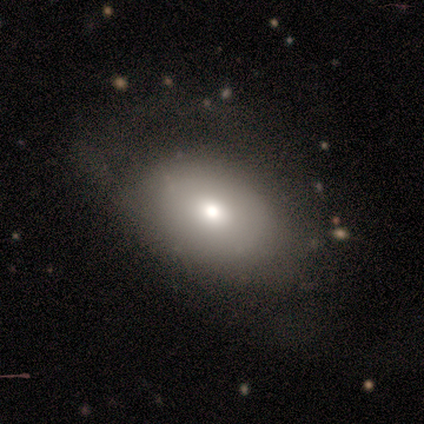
smooth-or-featured: featured or disk: 60% | smooth: 40% | star or artifact: 0%
  disk-edge-on: no: 67% | yes: 33%
    bar: no: 100% | strong: 0% | weak: 0%
    has-spiral-arms: no: 100% | yes: 0%
    bulge-size: moderate: 50% (tied) | small: 50% (tied) | dominant: 0% | large: 0% | none: 0%
  merging: none: 80% | minor disturbance: 20% | major disturbance: 0% | merger: 0%